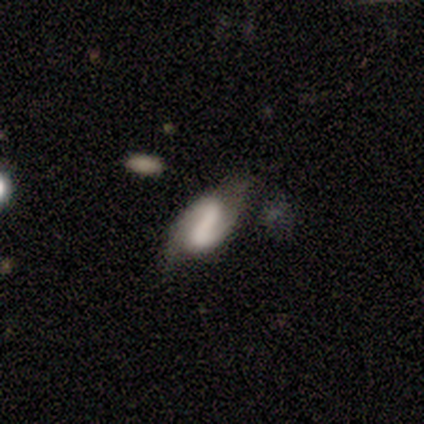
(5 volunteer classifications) Overall: smooth (60%; featured or disk 40%). How rounded: in between (100%). Merging: none (60%; minor disturbance 40%).